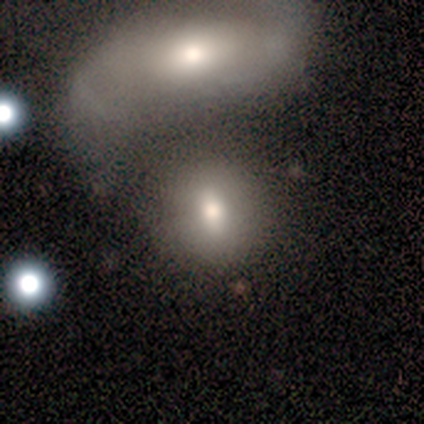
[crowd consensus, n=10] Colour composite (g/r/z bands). It shows a smooth galaxy with no disk features (80%) that is round (62%). Merging: merger (70%).